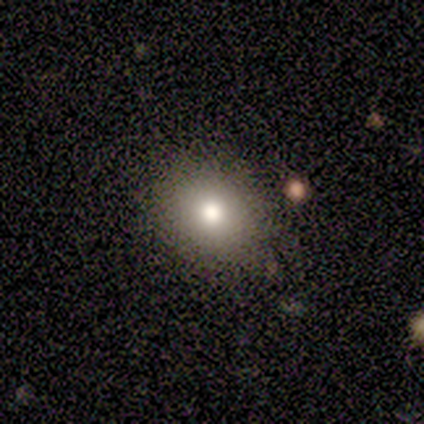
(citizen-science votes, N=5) A smooth galaxy with no disk features (80%) that is round (75%).

Vote fractions:
- Smooth or featured? smooth: 80% / star or artifact: 20% / featured or disk: 0%
- How rounded? round: 75% / in between: 25% / cigar-shaped: 0%
- Merging? none: 100% / minor disturbance: 0% / major disturbance: 0% / merger: 0%